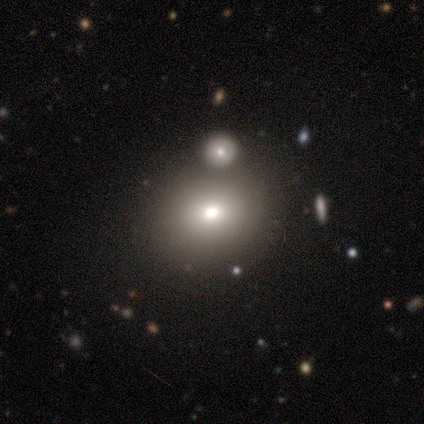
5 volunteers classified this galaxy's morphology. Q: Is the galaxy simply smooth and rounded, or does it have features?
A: smooth — 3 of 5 (60%).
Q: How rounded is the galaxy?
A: round — 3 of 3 (100%).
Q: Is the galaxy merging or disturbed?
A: none — 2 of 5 (40%).